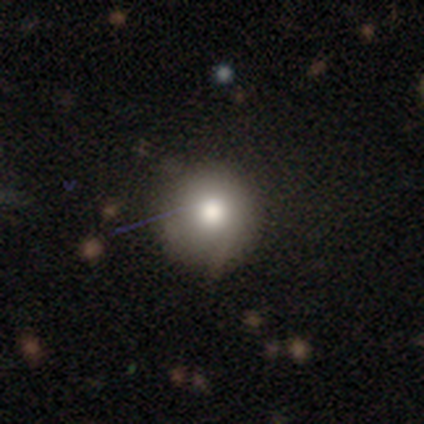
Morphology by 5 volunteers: Overall: smooth (80%). How rounded: round (100%). Merging: none (100%).